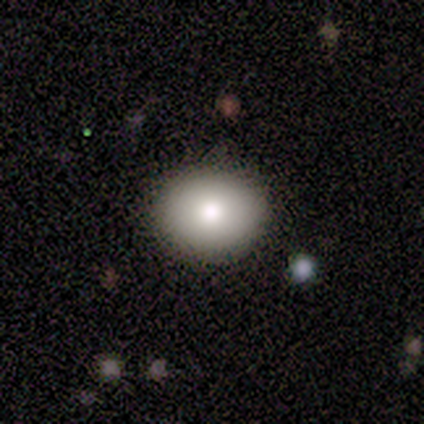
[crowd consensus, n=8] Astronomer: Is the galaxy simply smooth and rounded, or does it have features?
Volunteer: smooth — 100%.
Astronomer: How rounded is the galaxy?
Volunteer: round — 75%.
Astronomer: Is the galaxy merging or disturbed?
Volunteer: none — 88%.